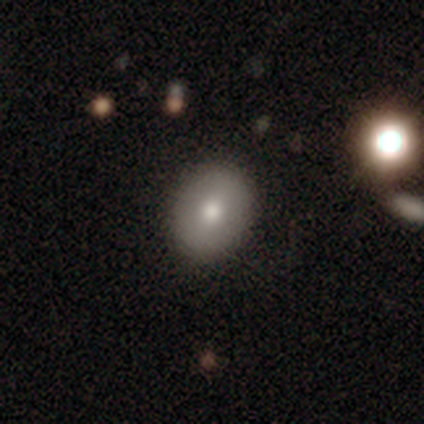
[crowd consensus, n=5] Smooth or featured? 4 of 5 (80%) said smooth. How rounded? 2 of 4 (50%, tied with in between) said round. Merging? 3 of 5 (60%) said none.